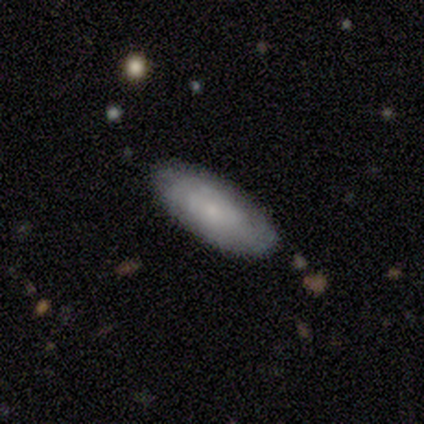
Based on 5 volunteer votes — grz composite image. It shows a smooth galaxy with no disk features (60%) that is in between round and cigar-shaped (67%). Merging: none (100%).